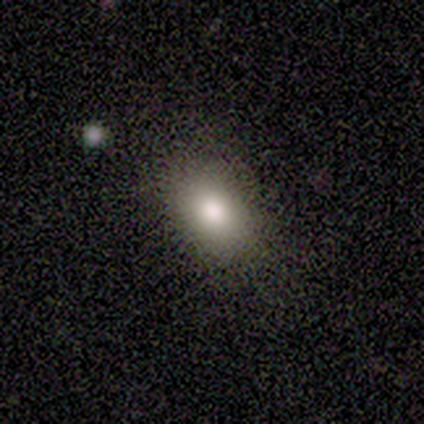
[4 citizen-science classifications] smooth-or-featured: smooth: 50% (tied) | featured or disk: 50% (tied) | star or artifact: 0%
  how-rounded: in between: 100% | round: 0% | cigar-shaped: 0%
  merging: none: 100% | minor disturbance: 0% | major disturbance: 0% | merger: 0%